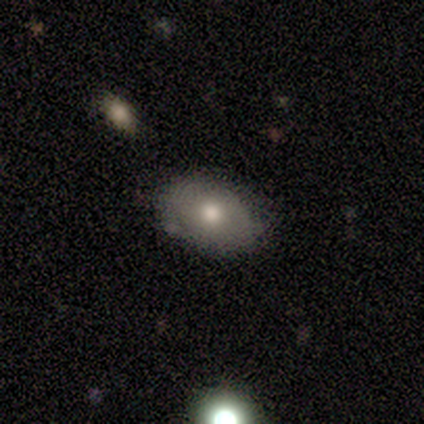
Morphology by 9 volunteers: smooth-or-featured: smooth: 89% | featured or disk: 11% | star or artifact: 0%
  how-rounded: in between: 75% | round: 25% | cigar-shaped: 0%
  merging: none: 100% | minor disturbance: 0% | major disturbance: 0% | merger: 0%